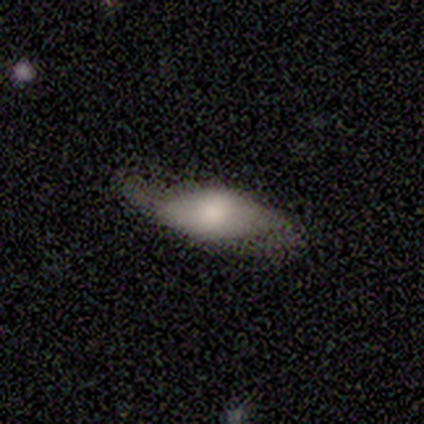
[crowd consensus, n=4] A smooth galaxy with no disk features (75%) that is in between round and cigar-shaped (100%).

Vote fractions:
- Smooth or featured? smooth: 75% / featured or disk: 25% / star or artifact: 0%
- How rounded? in between: 100% / round: 0% / cigar-shaped: 0%
- Merging? none: 75% / minor disturbance: 25% / major disturbance: 0% / merger: 0%